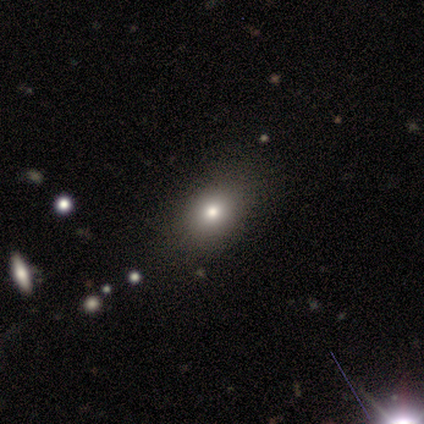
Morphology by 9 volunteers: A smooth galaxy with no disk features (67%) that is round (50%, tied with in between).

Vote fractions:
- Smooth or featured? smooth: 67% / star or artifact: 22% / featured or disk: 11%
- How rounded? round: 50% (tied) / in between: 50% (tied) / cigar-shaped: 0%
- Merging? none: 57% / minor disturbance: 43% / major disturbance: 0% / merger: 0%